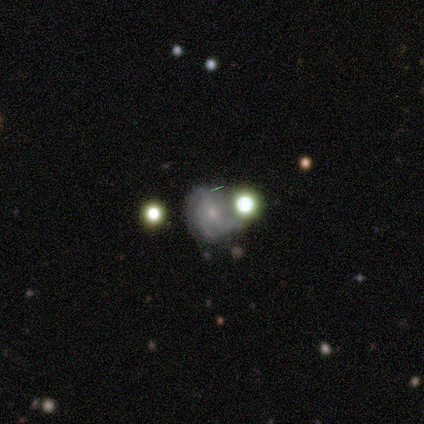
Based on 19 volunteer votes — smooth_or_featured: featured or disk (p=0.58) [alt: smooth p=0.21]
disk_edge_on: no (p=1.00)
bar: no (p=0.73) [alt: weak p=0.27]
has_spiral_arms: yes (p=0.82) [alt: no p=0.18]
spiral_winding: tight (p=0.44) [tied with: medium p=0.44]
spiral_arm_count: 3 (p=0.56) [alt: can't tell p=0.33]
bulge_size: small (p=0.73) [alt: moderate p=0.18]
merging: none (p=0.53) [alt: minor disturbance p=0.27]